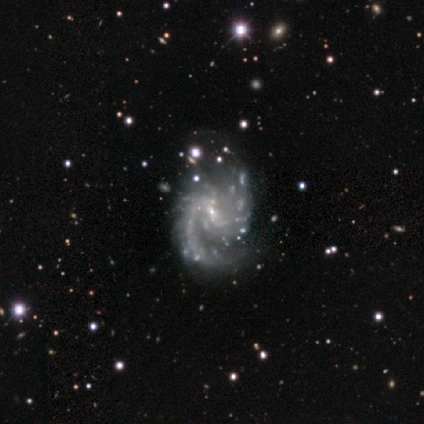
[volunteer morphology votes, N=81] smooth-or-featured: featured or disk: 93% | star or artifact: 6% | smooth: 1%
  disk-edge-on: no: 100% | yes: 0%
    bar: weak: 49% | no: 43% | strong: 8%
    has-spiral-arms: yes: 96% | no: 4%
      spiral-winding: medium: 68% | loose: 24% | tight: 8%
      spiral-arm-count: 2: 67% | can't tell: 15% | 1: 10% | more than 4: 4% | 4: 3% | 3: 1%
    bulge-size: small: 87% | none: 9% | moderate: 4% | dominant: 0% | large: 0%
  merging: none: 46% | minor disturbance: 28% | major disturbance: 22% | merger: 4%